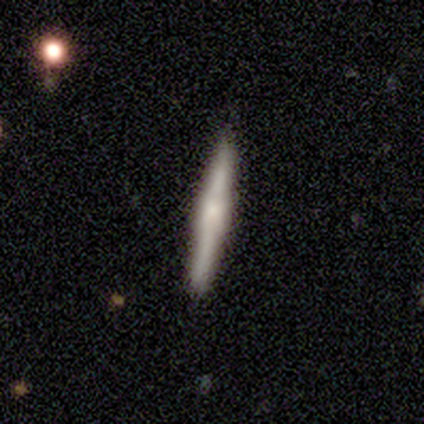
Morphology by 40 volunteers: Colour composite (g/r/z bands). It shows a featured or disk galaxy (50%) viewed edge-on (100%) with a rounded central bulge (55%). Merging: none (94%).